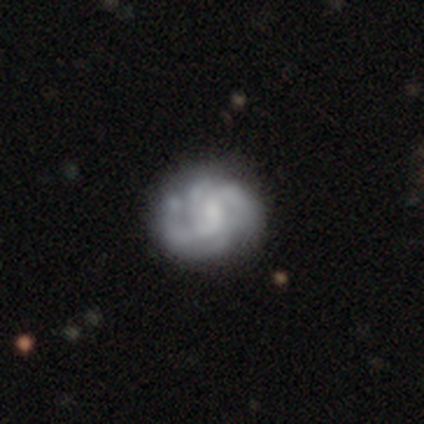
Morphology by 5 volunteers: Smooth or featured: featured or disk — 60% (smooth — 40%)
Edge-on disk: no — 100%
Bar: no — 100%
Spiral arms: no — 67% (yes — 33%)
Bulge size: none — 67% (small — 33%)
Merging: major disturbance — 40% (none — 20%)